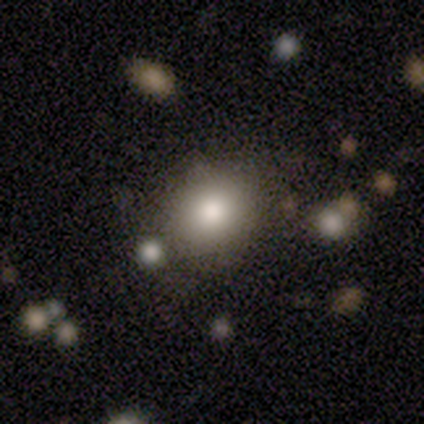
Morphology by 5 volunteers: smooth_or_featured: smooth (p=1.00)
how_rounded: round (p=1.00)
merging: none (p=0.60) [alt: minor disturbance p=0.20]